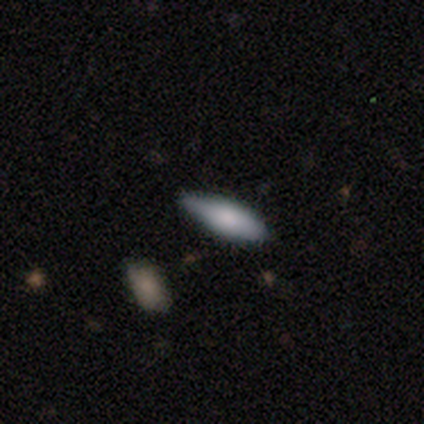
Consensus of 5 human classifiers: smooth-or-featured: smooth: 100% | featured or disk: 0% | star or artifact: 0%
  how-rounded: in between: 80% | cigar-shaped: 20% | round: 0%
  merging: none: 80% | minor disturbance: 20% | major disturbance: 0% | merger: 0%